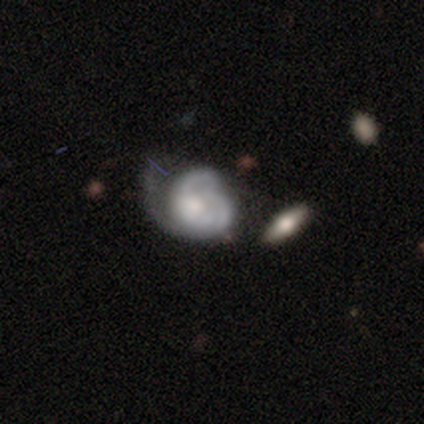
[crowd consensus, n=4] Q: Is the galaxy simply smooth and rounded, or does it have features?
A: featured or disk — 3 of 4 (75%).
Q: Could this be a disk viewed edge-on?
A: no — 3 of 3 (100%).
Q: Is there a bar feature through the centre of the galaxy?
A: no — 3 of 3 (100%).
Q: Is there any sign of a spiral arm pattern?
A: yes — 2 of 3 (67%).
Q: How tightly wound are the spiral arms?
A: tight — 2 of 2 (100%).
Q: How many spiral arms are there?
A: can't tell — 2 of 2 (100%).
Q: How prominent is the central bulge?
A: moderate — 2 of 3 (67%).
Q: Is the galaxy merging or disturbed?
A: major disturbance — 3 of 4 (75%).